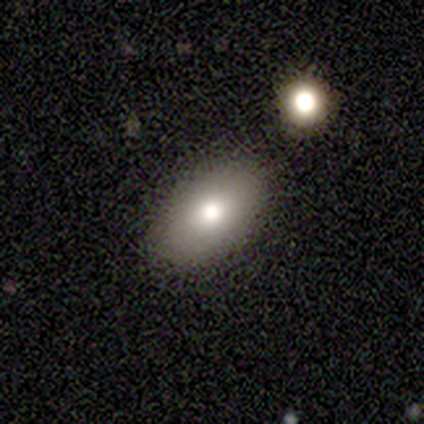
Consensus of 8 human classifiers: This is likely a smooth galaxy (75%). How rounded: clearly in between (100%). Merging: clearly none (100%).